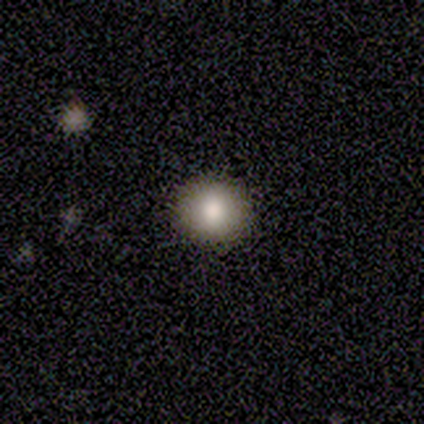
Morphology: type=star or artifact (50%).